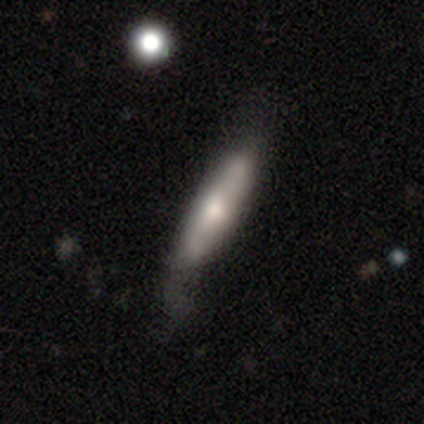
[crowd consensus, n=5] smooth 60%, featured or disk 40%, star or artifact 0%. Down the decision tree: how rounded — cigar-shaped (100%); merging — none (40%, tied with minor disturbance).